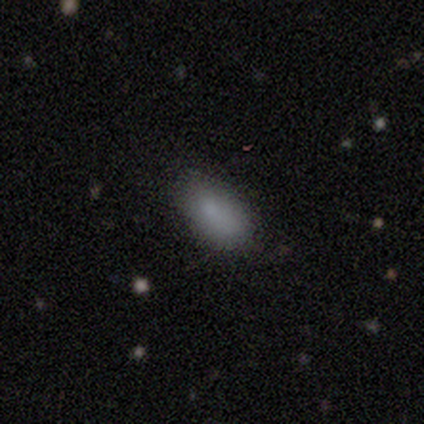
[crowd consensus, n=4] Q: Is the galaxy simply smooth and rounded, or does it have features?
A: smooth — 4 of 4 (100%).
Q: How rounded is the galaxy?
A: in between — 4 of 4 (100%).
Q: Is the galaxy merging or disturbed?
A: none — 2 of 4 (50%, tied with minor disturbance).